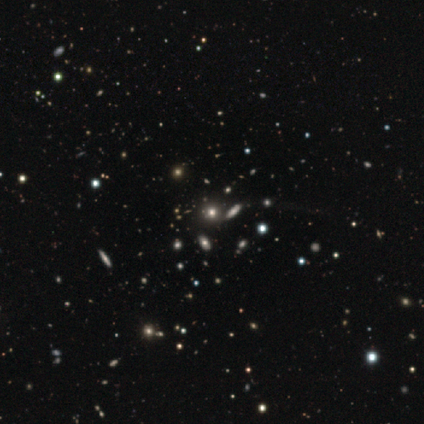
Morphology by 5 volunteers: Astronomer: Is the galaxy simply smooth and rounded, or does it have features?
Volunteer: smooth — 80%.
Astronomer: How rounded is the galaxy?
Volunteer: round — 100%.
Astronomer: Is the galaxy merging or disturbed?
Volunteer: none — 100%.